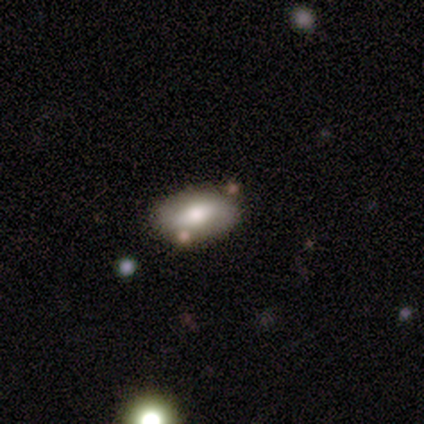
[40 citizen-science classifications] Smooth or featured?
  - smooth: 50% *
  - featured or disk: 45%
  - star or artifact: 5%
How rounded?
  - in between: 100% *
  - round: 0%
  - cigar-shaped: 0%
Merging?
  - none: 74% *
  - minor disturbance: 11%
  - major disturbance: 8%
  - merger: 8%